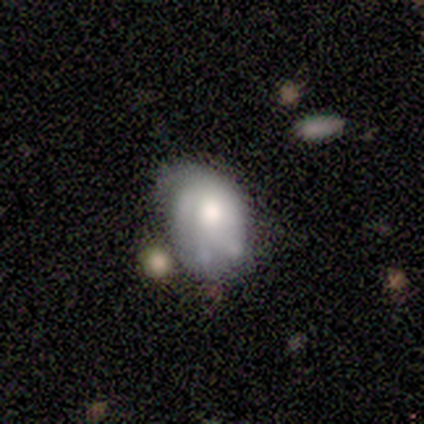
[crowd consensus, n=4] smooth 50% (tied), featured or disk 50% (tied), star or artifact 0%. Down the decision tree: how rounded — round (50%, tied with in between); merging — none (50%, tied with minor disturbance).